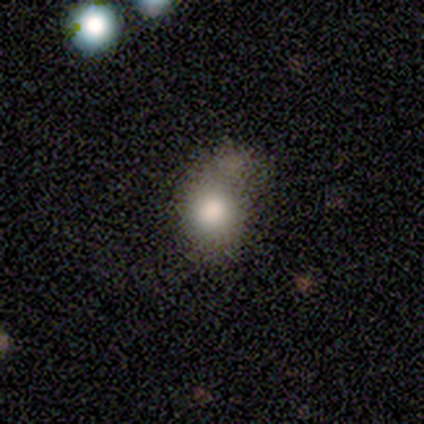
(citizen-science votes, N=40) Overall: smooth (85%). How rounded: round (68%; in between 32%). Merging: merger (22%; none 14%).